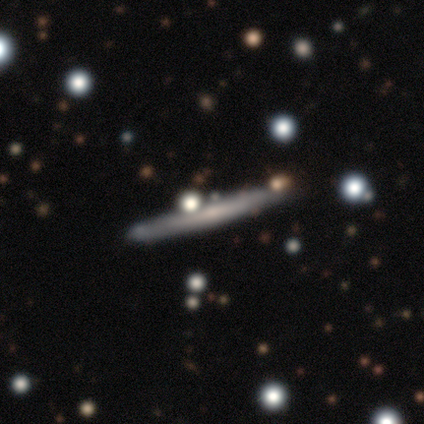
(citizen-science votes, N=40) featured or disk 60%, smooth 38%, star or artifact 2%. Down the decision tree: edge-on disk — yes (96%); edge-on bulge — none (74%); merging — none (87%).